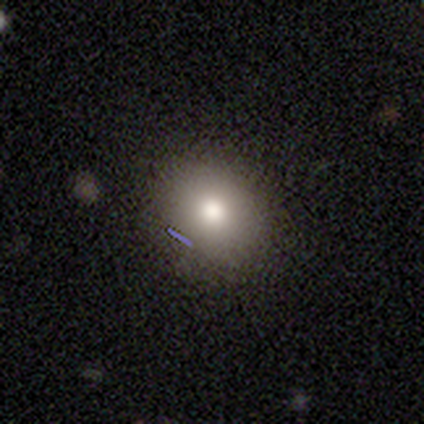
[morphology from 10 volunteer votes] This appears to be a smooth galaxy with no disk features (90%) that is round (89%). Merging: none (89%).